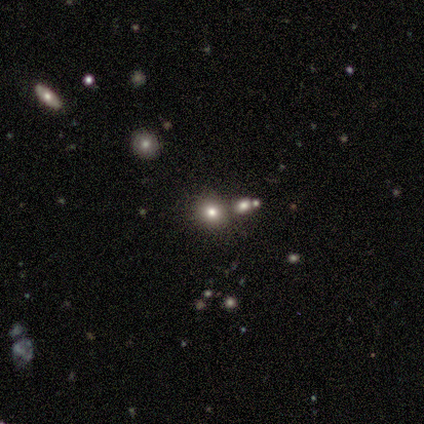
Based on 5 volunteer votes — Smooth or featured?
  - smooth: 80% *
  - star or artifact: 20%
  - featured or disk: 0%
How rounded?
  - round: 100% *
  - in between: 0%
  - cigar-shaped: 0%
Merging?
  - none: 75% *
  - merger: 25%
  - minor disturbance: 0%
  - major disturbance: 0%